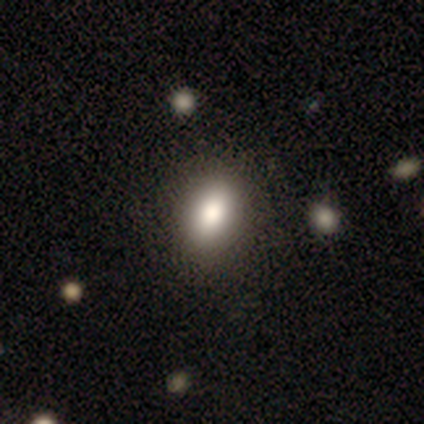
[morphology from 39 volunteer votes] A smooth galaxy with no disk features (77%) that is in between round and cigar-shaped (77%).

Vote fractions:
- Smooth or featured? smooth: 77% / featured or disk: 15% / star or artifact: 8%
- How rounded? in between: 77% / round: 23% / cigar-shaped: 0%
- Merging? none: 61% / minor disturbance: 6% / merger: 6% / major disturbance: 0%